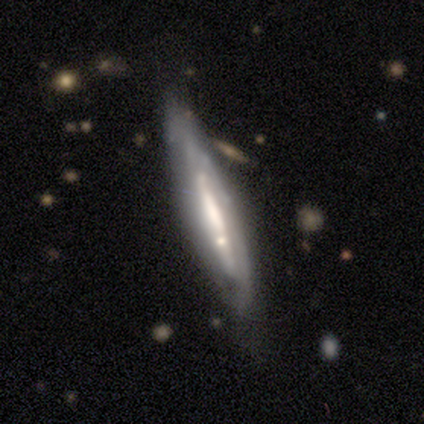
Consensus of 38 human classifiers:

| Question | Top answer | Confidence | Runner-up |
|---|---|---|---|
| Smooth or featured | featured or disk | 82% | smooth (16%) |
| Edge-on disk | yes | 58% | no (42%) |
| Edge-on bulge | none | 67% | rounded (22%) |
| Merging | none | 59% | minor disturbance (32%) |